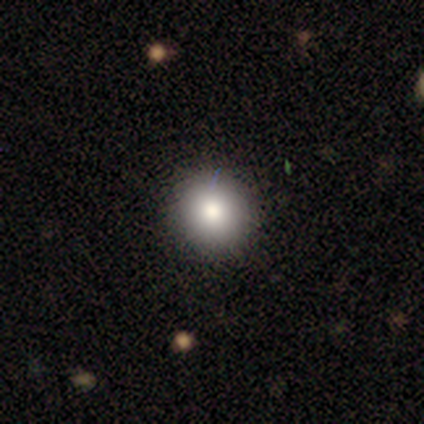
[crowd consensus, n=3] A smooth galaxy with no disk features (100%) that is round (100%). Merging: none (100%).